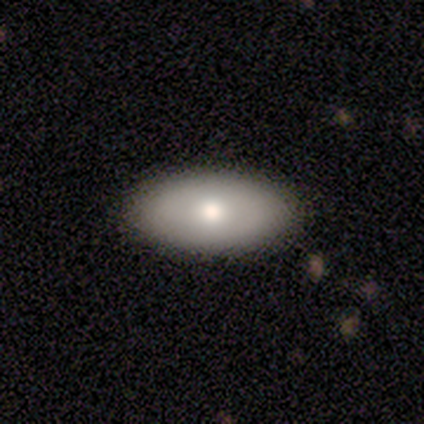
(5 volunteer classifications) Volunteers were most divided on "smooth or featured": smooth: 60%, star or artifact: 40%, featured or disk: 0%. More confident: how rounded — in between (100%); merging — none (67%).